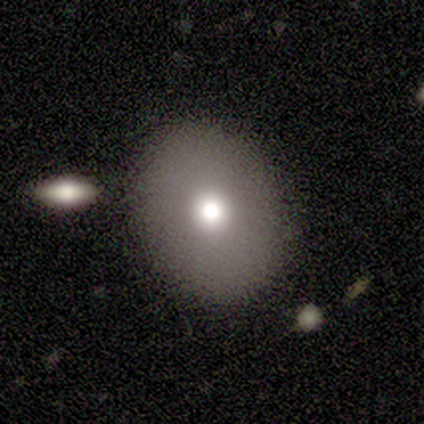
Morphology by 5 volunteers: Smooth or featured: smooth — 80% (star or artifact — 20%)
How rounded: round — 75% (in between — 25%)
Merging: none — 100%